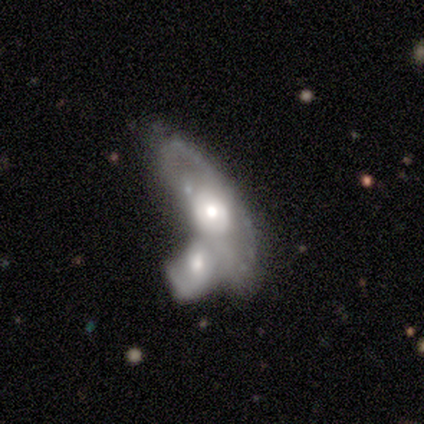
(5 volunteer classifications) Q: Smooth or featured?
A: smooth (60%); runner-up: featured or disk (40%)
Q: How rounded?
A: in between (100%)
Q: Merging?
A: merger (60%); runner-up: none (20%)